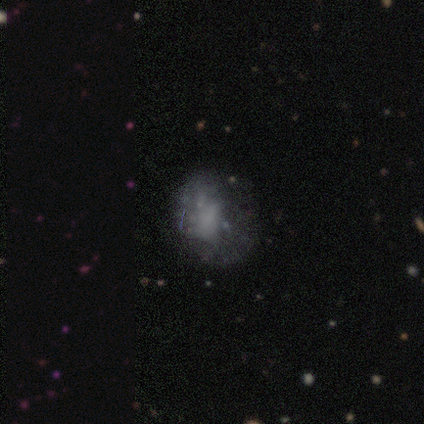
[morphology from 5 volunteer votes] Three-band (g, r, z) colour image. It shows a smooth galaxy with no disk features (60%) that is round (33%, tied with in between and cigar-shaped). Merging: none (75%).